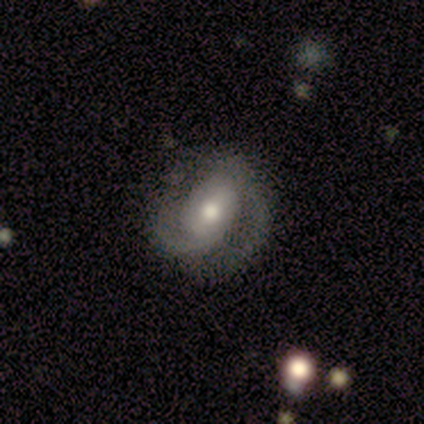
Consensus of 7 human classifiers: Volunteers were most divided on "bar" (2-way tie): strong: 43%, no: 43%, weak: 14%. Remaining: smooth or featured — featured or disk (100%); edge-on disk — no (100%); spiral arms — yes (100%); spiral arm count — 2 (100%); merging — none (100%); bulge size — moderate (57%); spiral winding — tight (43%).